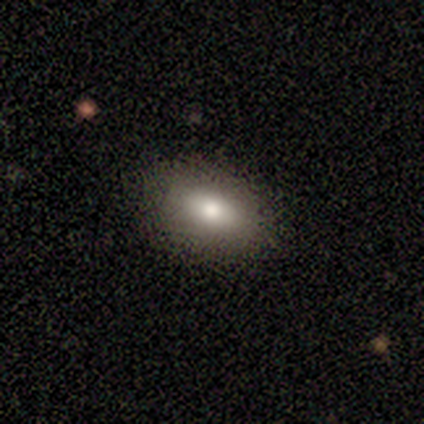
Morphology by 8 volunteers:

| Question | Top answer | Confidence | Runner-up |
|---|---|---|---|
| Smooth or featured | smooth | 88% | star or artifact (12%) |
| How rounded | in between | 71% | round (14%) |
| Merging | none | 100% | — |